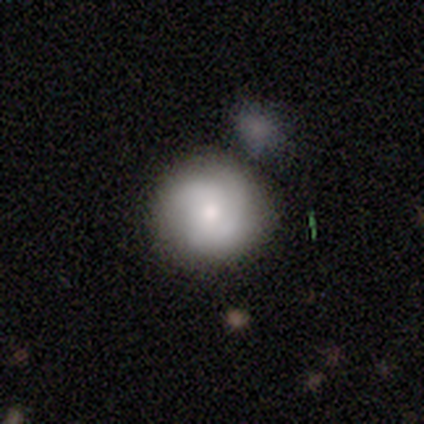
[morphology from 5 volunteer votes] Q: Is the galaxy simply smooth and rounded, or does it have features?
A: smooth — 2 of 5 (40%, tied with star or artifact).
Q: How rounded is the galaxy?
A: round — 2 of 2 (100%).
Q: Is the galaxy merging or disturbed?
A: none — 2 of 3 (67%).